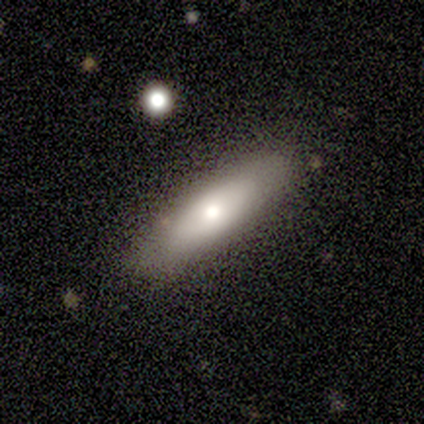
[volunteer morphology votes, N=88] A smooth galaxy with no disk features (66%) that is cigar-shaped (60%).

Vote fractions:
- Smooth or featured? smooth: 66% / featured or disk: 32% / star or artifact: 2%
- How rounded? cigar-shaped: 60% / in between: 40% / round: 0%
- Merging? none: 87% / minor disturbance: 7% / major disturbance: 3% / merger: 2%